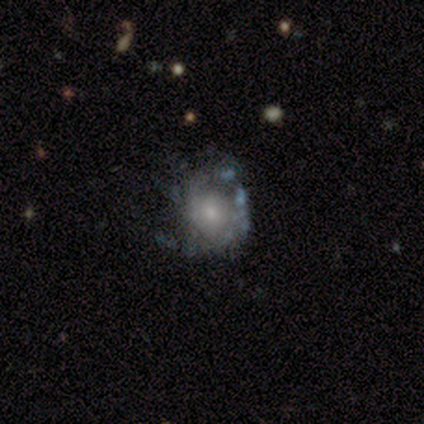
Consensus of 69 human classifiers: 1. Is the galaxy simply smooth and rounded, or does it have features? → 81% featured or disk, 13% smooth, 6% star or artifact.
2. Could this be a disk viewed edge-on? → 100% no, 0% yes.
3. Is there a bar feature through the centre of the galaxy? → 88% no, 11% weak, 2% strong.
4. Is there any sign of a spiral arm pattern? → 62% yes, 38% no.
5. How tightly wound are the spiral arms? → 54% tight, 37% medium, 9% loose.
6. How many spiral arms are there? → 46% can't tell, 23% 2, 20% 1, 6% 3, 3% 4, 3% more than 4.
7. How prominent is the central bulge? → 46% small, 34% moderate, 11% large, 5% none, 4% dominant.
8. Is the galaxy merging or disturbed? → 42% none, 29% major disturbance, 25% minor disturbance, 5% merger.